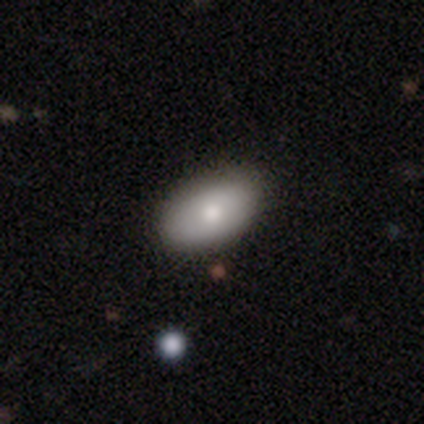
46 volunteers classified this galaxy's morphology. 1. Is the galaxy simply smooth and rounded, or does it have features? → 76% smooth, 15% featured or disk, 9% star or artifact.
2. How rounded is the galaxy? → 91% in between, 9% round, 0% cigar-shaped.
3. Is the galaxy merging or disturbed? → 86% none, 14% minor disturbance, 0% major disturbance, 0% merger.